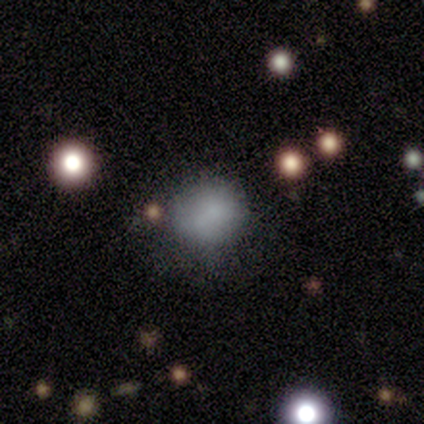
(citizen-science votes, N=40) Morphology: type=smooth (80%); roundness=round (88%); merging=none (53%).